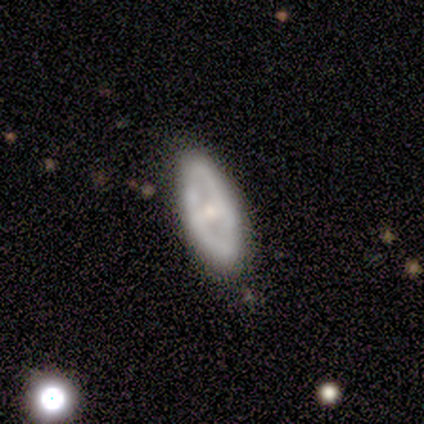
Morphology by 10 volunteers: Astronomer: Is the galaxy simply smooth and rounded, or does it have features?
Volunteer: featured or disk — 60%.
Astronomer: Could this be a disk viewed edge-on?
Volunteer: no — 100%.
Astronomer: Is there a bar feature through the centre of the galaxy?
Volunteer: no — 67%.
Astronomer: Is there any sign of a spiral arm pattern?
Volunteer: no — 100%.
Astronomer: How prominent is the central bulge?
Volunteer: moderate — 83%.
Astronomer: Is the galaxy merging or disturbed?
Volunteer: none — 89%.